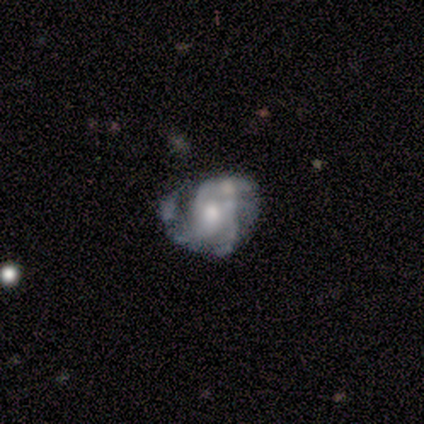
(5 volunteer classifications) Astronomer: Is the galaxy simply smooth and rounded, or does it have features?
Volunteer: featured or disk — 100%.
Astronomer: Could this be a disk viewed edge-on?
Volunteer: no — 100%.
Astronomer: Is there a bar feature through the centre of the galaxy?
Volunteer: no — 60%.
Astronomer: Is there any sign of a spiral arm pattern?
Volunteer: yes — 100%.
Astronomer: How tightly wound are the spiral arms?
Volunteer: tight — 80%.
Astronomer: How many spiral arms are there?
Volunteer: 4 — 40%, tied with can't tell at 40%.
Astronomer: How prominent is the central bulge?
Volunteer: moderate — 80%.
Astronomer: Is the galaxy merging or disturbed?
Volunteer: minor disturbance — 40%, tied with major disturbance at 40%.